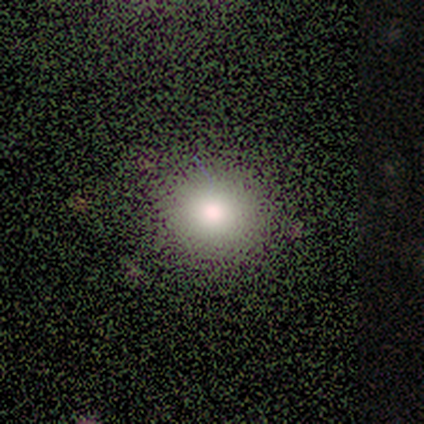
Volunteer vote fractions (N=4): smooth_or_featured: smooth (p=0.50) [alt: featured or disk p=0.25]
how_rounded: round (p=0.50) [tied with: in between p=0.50]
merging: none (p=1.00)